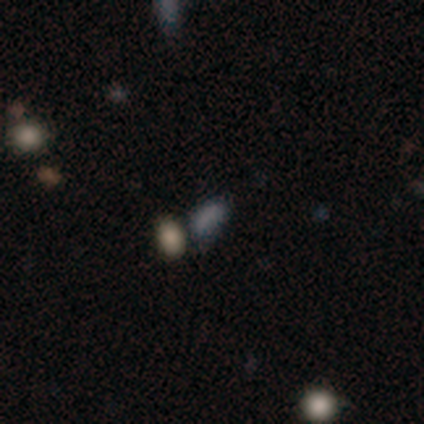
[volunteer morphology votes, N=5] type=smooth (80%); roundness=in between (100%); merging=none (25%, tied with minor disturbance, major disturbance and merger).